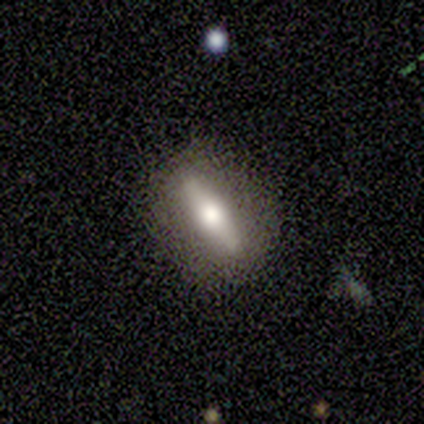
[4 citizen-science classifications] Q: Smooth or featured?
A: featured or disk (100%)
Q: Edge-on disk?
A: yes (50%); tied with: no (50%)
Q: Edge-on bulge?
A: rounded (100%)
Q: Merging?
A: none (75%); runner-up: minor disturbance (25%)